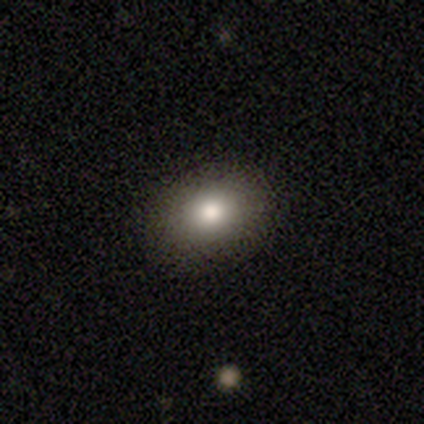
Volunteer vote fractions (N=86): Smooth or featured? smooth (80%)
How rounded? in between (54%)
Merging? none (97%)